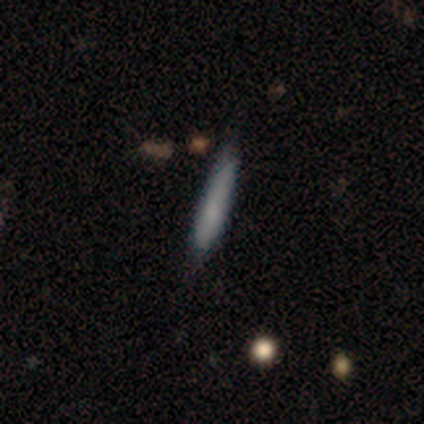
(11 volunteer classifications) Morphology: type=smooth (45%, tied with featured or disk); roundness=cigar-shaped (80%); merging=none (80%).